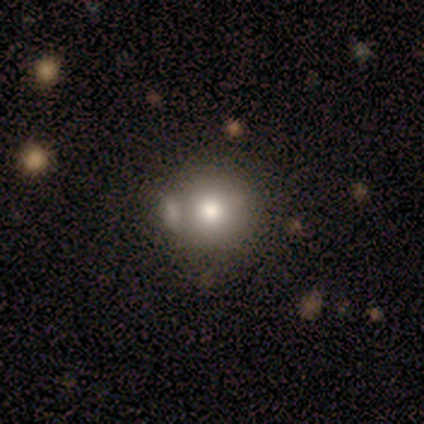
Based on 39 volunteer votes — A smooth galaxy with no disk features (77%) that is round (87%).

Vote fractions:
- Smooth or featured? smooth: 77% / featured or disk: 15% / star or artifact: 8%
- How rounded? round: 87% / in between: 10% / cigar-shaped: 3%
- Merging? none: 58% / merger: 25% / minor disturbance: 14% / major disturbance: 3%